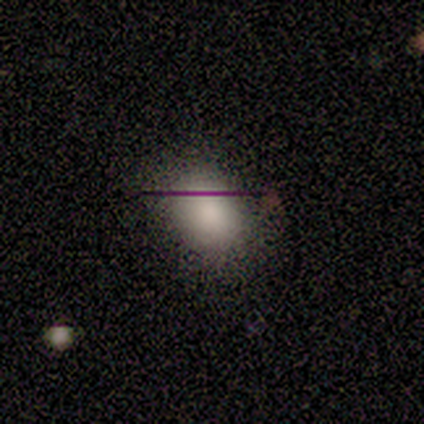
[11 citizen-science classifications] A smooth galaxy with no disk features (91%) that is in between round and cigar-shaped (80%). Merging: none (80%).